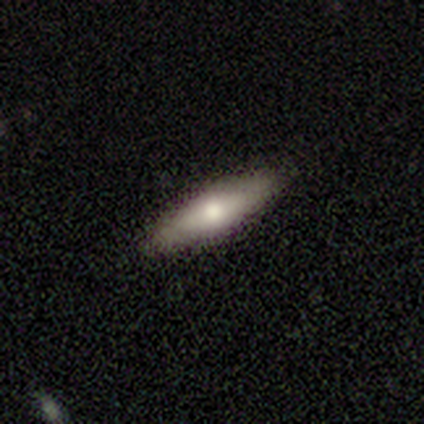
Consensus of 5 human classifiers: Smooth or featured?
  - smooth: 100% *
  - featured or disk: 0%
  - star or artifact: 0%
How rounded?
  - cigar-shaped: 60% *
  - in between: 40%
  - round: 0%
Merging?
  - none: 80% *
  - minor disturbance: 20%
  - major disturbance: 0%
  - merger: 0%